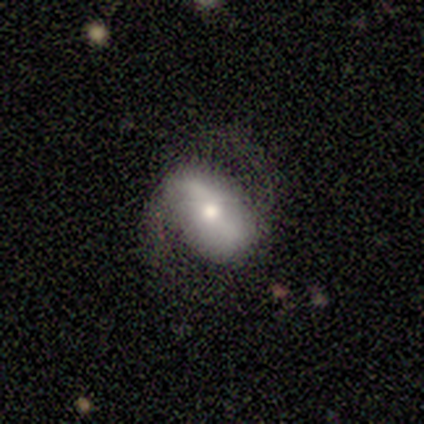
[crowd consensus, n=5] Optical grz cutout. It shows a featured or disk galaxy (60%) with a weak bar (67%), 2 (100%) tight (33%, tied with medium and loose) spiral arms (100%) and a small central bulge (67%). Merging: minor disturbance (60%).